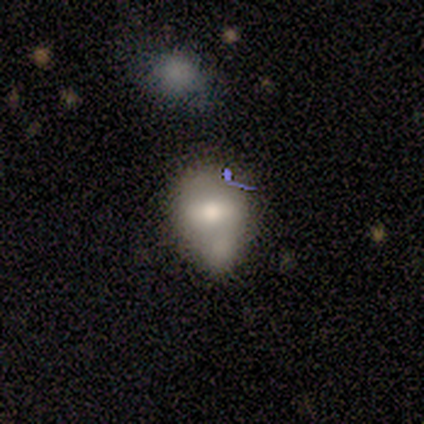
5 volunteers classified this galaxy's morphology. Smooth or featured? 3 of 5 (60%) said smooth. How rounded? 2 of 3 (67%) said round. Merging? 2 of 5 (40%, tied with merger) said minor disturbance.